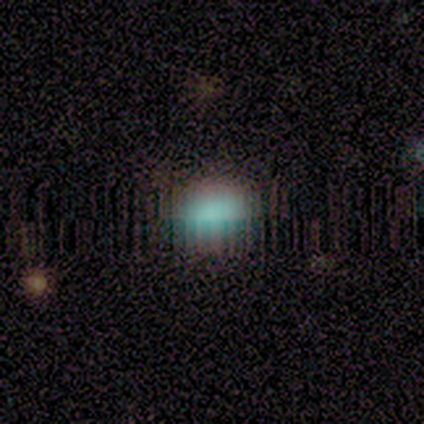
Overall: smooth (60%; star or artifact 40%). How rounded: round (33%, tied with in between and cigar-shaped). Merging: none (67%; minor disturbance 33%).